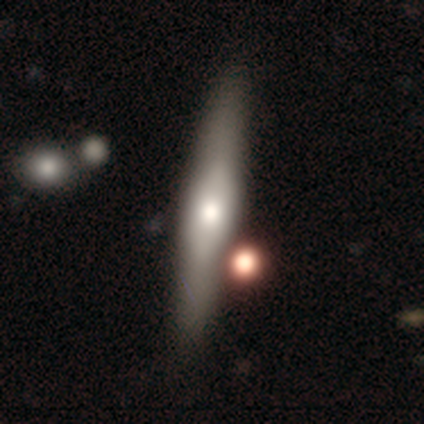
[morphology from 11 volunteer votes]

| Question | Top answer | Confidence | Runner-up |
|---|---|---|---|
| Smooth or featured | featured or disk | 64% | smooth (36%) |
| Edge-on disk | yes | 86% | no (14%) |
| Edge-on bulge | rounded | 100% | — |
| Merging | none | 64% | merger (18%) |